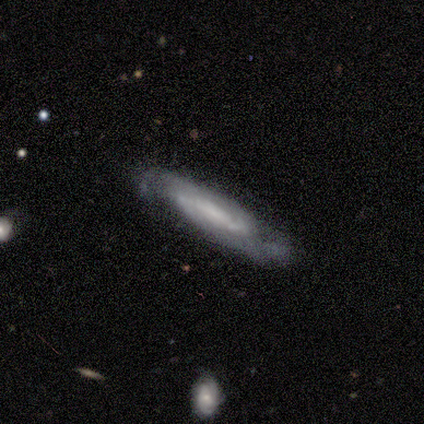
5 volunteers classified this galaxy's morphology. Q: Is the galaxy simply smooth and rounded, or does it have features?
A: featured or disk — 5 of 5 (100%).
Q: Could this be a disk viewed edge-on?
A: no — 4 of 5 (80%).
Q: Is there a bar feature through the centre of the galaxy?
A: weak — 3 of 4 (75%).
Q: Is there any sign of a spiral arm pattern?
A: yes — 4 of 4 (100%).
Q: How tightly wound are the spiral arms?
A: medium — 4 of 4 (100%).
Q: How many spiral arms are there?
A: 2 — 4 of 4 (100%).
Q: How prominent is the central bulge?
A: moderate — 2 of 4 (50%, tied with none).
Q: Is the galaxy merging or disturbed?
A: none — 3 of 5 (60%).